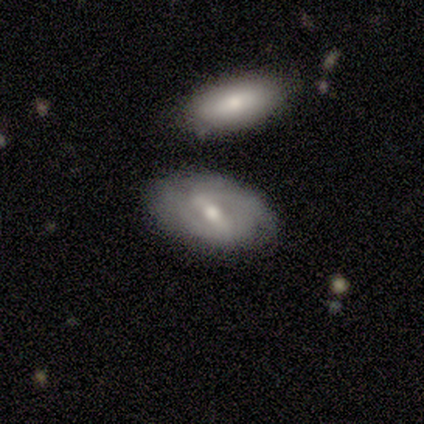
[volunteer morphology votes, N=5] This appears to be a featured or disk galaxy (60%) with a strong bar (100%), 2 (100%) tight (33%, tied with medium and loose) spiral arms (100%) and a moderate central bulge (100%). Merging: none (60%).